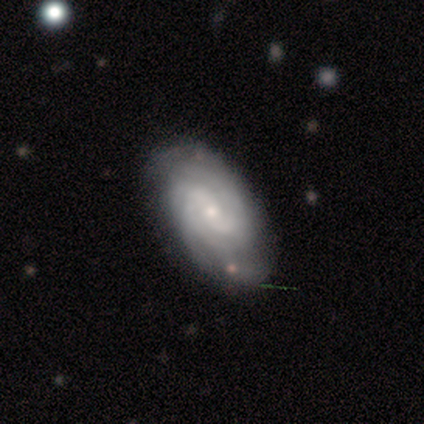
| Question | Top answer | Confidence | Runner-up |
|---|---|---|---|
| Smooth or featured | featured or disk | 100% | — |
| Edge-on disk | no | 100% | — |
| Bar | weak | 60% | no (40%) |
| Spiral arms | yes | 100% | — |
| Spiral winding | tight | 100% | — |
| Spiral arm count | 2 | 60% | 4 (20%) |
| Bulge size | small | 80% | moderate (20%) |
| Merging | none | 80% | minor disturbance (20%) |